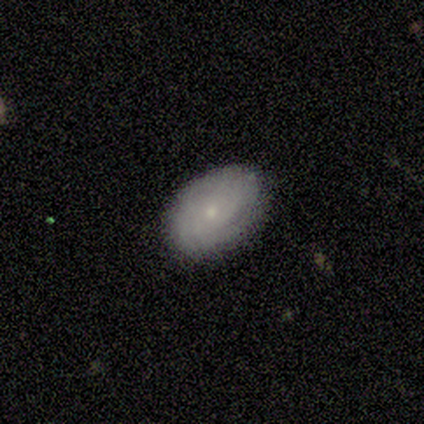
featured or disk 59%, smooth 35%, star or artifact 5%. Down the decision tree: edge-on disk — no (91%); bar — no (100%); spiral arms — yes (85%); spiral arm count — can't tell (65%); spiral winding — tight (82%); bulge size — small (80%); merging — none (86%).